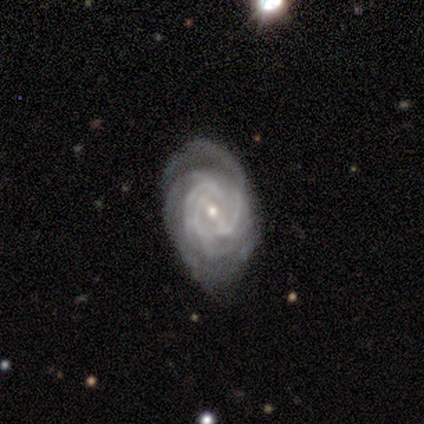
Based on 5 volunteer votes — featured or disk 100%, smooth 0%, star or artifact 0%. Down the decision tree: edge-on disk — no (100%); bar — weak (60%); spiral arms — yes (100%); spiral arm count — 3 (40%, tied with can't tell); spiral winding — tight (80%); bulge size — small (60%); merging — none (100%).